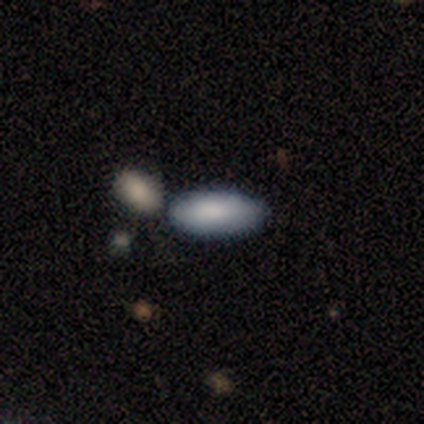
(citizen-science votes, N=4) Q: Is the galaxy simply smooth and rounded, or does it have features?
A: smooth — 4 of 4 (100%).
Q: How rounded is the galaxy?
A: in between — 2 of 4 (50%).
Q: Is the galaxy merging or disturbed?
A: none — 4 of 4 (100%).